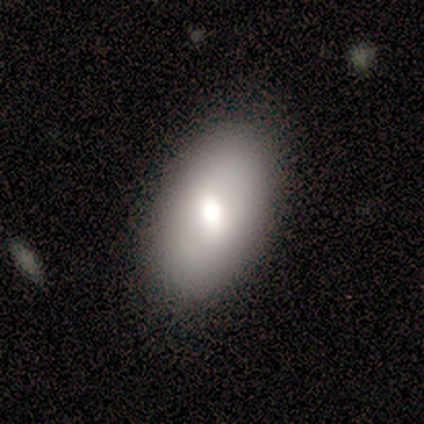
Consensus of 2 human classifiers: Smooth or featured? 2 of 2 (100%) said smooth. How rounded? 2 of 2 (100%) said in between. Merging? 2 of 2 (100%) said none.